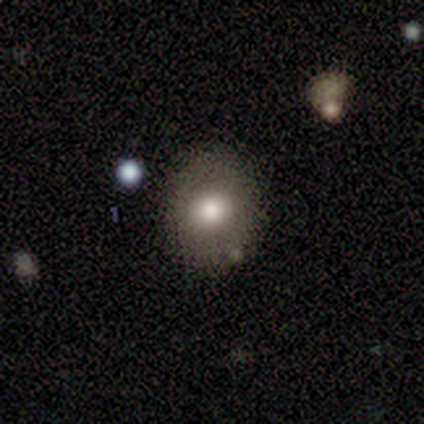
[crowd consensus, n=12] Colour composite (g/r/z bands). It shows a smooth galaxy with no disk features (100%) that is round (67%). Merging: none (83%).